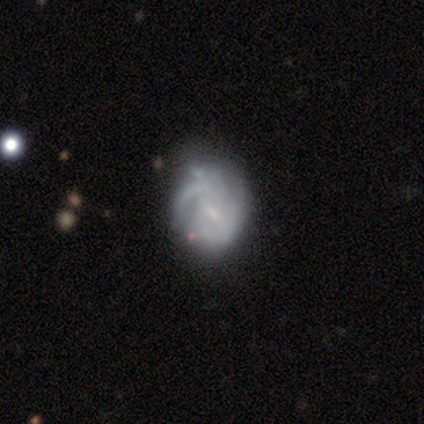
Smooth or featured: featured or disk — 75% (smooth — 25%)
Edge-on disk: no — 100%
Bar: weak — 67% (no — 33%)
Spiral arms: no — 67% (yes — 33%)
Bulge size: small — 67% (none — 33%)
Merging: minor disturbance — 75% (none — 25%)